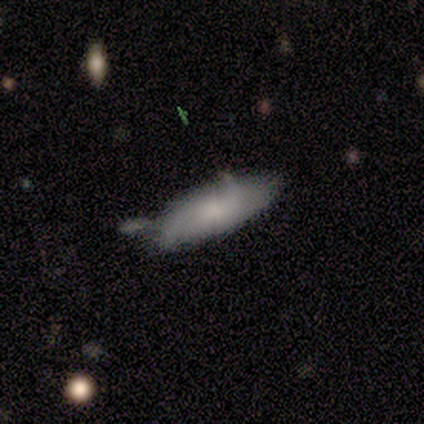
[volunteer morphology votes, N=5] Smooth or featured? smooth (40%, tied with star or artifact)
How rounded? in between (50%, tied with cigar-shaped)
Merging? major disturbance (67%)